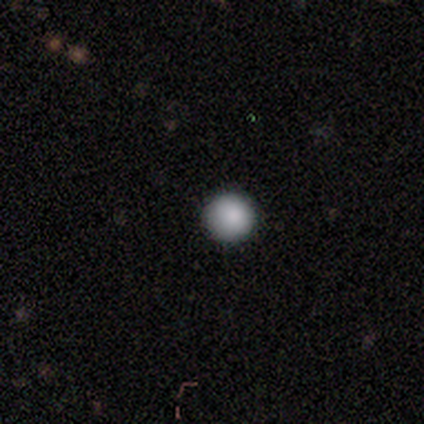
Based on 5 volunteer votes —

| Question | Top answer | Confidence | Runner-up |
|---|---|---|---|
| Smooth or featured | smooth | 60% | featured or disk (20%) |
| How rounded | round | 100% | — |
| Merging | none | 100% | — |